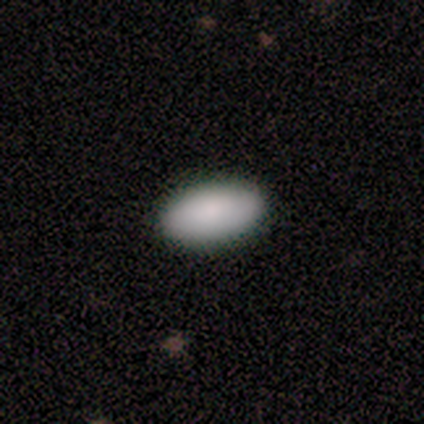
Smooth or featured? smooth (87%)
How rounded? in between (91%)
Merging? none (97%)